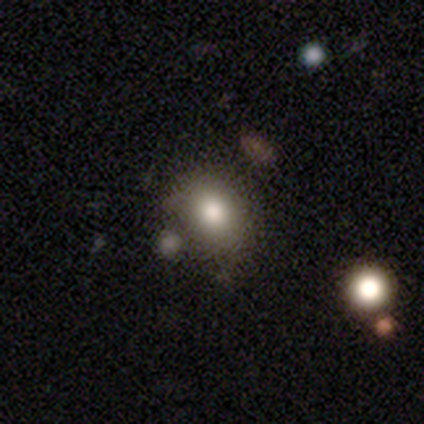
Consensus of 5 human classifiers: Smooth or featured?
  - smooth: 40% * (tied)
  - star or artifact: 40% * (tied)
  - featured or disk: 20%
How rounded?
  - round: 50% * (tied)
  - in between: 50% * (tied)
  - cigar-shaped: 0%
Merging?
  - none: 33% * (tied)
  - minor disturbance: 33% * (tied)
  - merger: 33% * (tied)
  - major disturbance: 0%